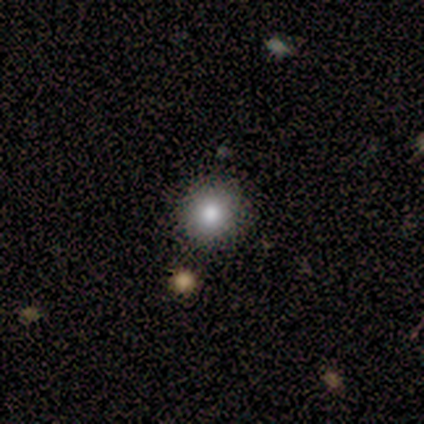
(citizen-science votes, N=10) This appears to be a smooth galaxy with no disk features (50%) that is round (100%). Merging: none (100%).